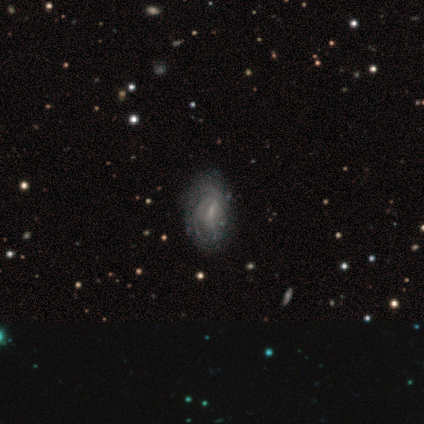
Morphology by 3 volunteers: Volunteers were most divided on "spiral arm count" (3-way tie): 1: 33%, 2: 33%, can't tell: 33%, 3: 0%, 4: 0%, more than 4: 0%. More confident: smooth or featured — featured or disk (100%); edge-on disk — no (100%); spiral arms — yes (100%); merging — none (100%); bar — weak (67%); spiral winding — tight (67%); bulge size — small (67%).